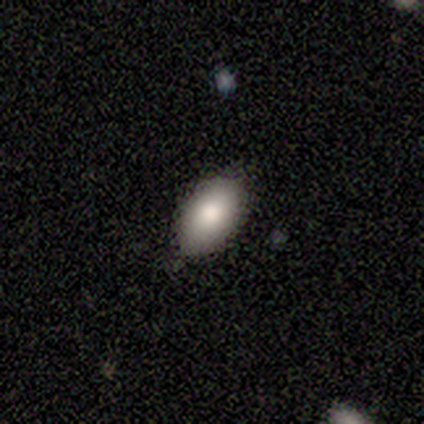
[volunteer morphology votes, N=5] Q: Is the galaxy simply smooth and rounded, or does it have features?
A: smooth — 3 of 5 (60%).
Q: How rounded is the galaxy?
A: in between — 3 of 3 (100%).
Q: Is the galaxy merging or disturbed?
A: none — 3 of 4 (75%).